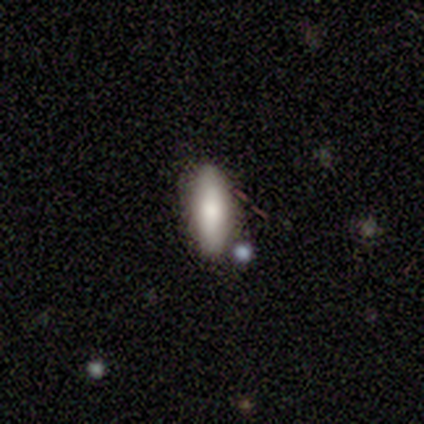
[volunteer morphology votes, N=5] smooth 80%, star or artifact 20%, featured or disk 0%. Down the decision tree: how rounded — in between (75%); merging — none (100%).